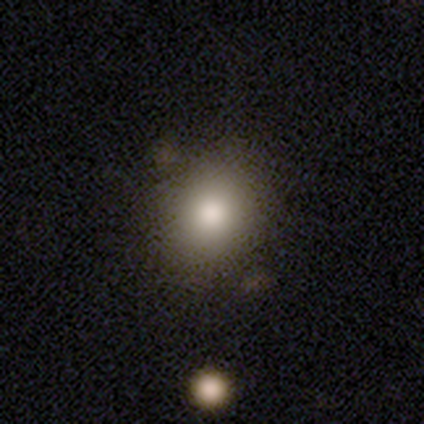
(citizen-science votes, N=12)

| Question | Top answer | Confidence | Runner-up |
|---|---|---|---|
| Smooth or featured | smooth | 67% | star or artifact (25%) |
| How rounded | round | 75% | in between (25%) |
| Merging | none | 89% | minor disturbance (11%) |